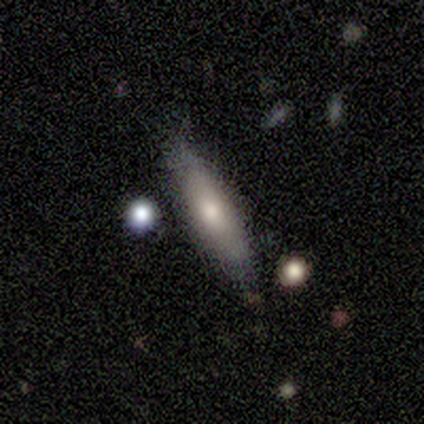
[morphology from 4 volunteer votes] type=smooth (75%); roundness=in between (67%); merging=none (100%).